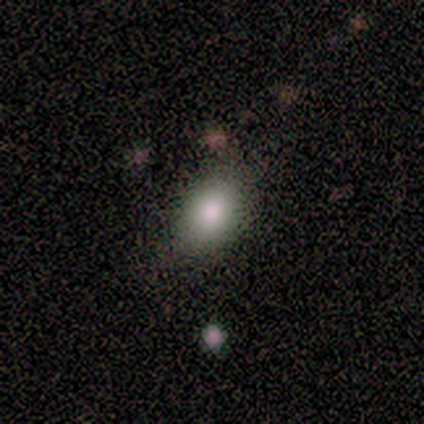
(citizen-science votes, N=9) smooth_or_featured: smooth (p=0.89) [alt: featured or disk p=0.11]
how_rounded: in between (p=0.75) [alt: round p=0.25]
merging: none (p=0.67) [alt: minor disturbance p=0.33]